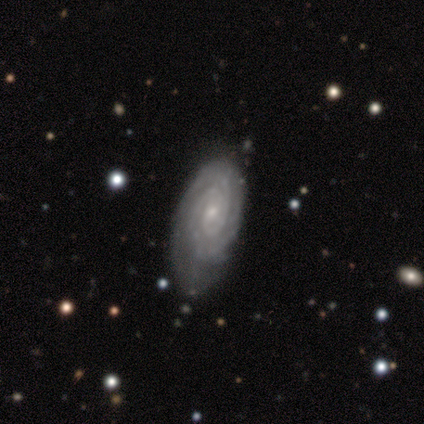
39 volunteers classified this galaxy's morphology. Volunteers were most divided on "merging": none: 45%, minor disturbance: 32%, major disturbance: 21%, merger: 3%. More confident: edge-on disk — no (100%); spiral arms — yes (100%); smooth or featured — featured or disk (87%); spiral winding — tight (82%); bulge size — small (76%); bar — no (71%); spiral arm count — 2 (59%).